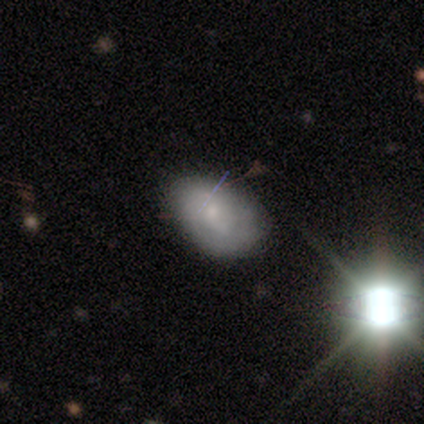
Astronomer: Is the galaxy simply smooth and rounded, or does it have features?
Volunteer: smooth — 45% (runner-up: featured or disk, 42%).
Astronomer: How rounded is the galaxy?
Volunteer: in between — 89%.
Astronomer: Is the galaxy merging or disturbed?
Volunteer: none — 63%.